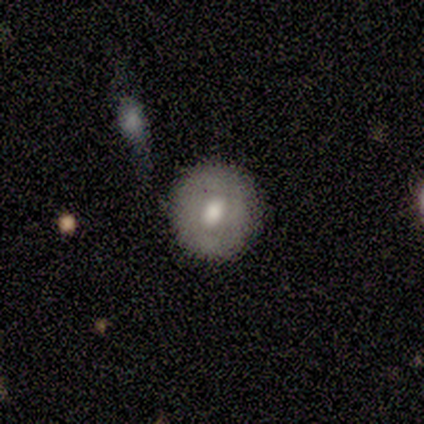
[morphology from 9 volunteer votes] This appears to be a smooth galaxy with no disk features (67%) that is round (67%). Merging: none (78%).